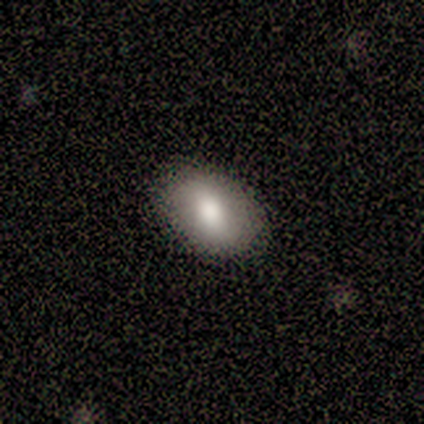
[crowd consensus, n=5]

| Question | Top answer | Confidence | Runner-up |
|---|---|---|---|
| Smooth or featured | smooth | 60% | featured or disk (20%) |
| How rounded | in between | 67% | round (33%) |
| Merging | none | 100% | — |